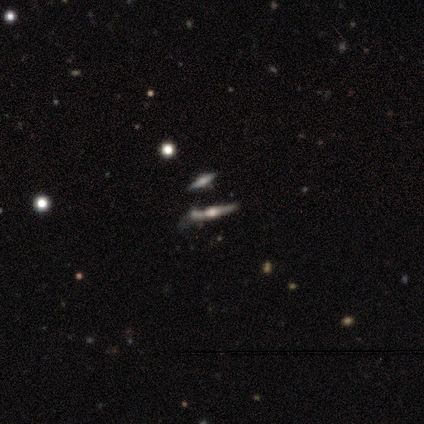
This is clearly a smooth galaxy (100%). How rounded: possibly in between (50%, tied with cigar-shaped). Merging: possibly minor disturbance (50%).